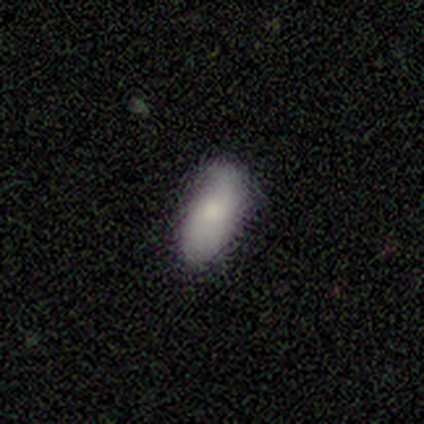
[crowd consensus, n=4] Morphology: type=smooth (75%); roundness=in between (100%); merging=none (67%).